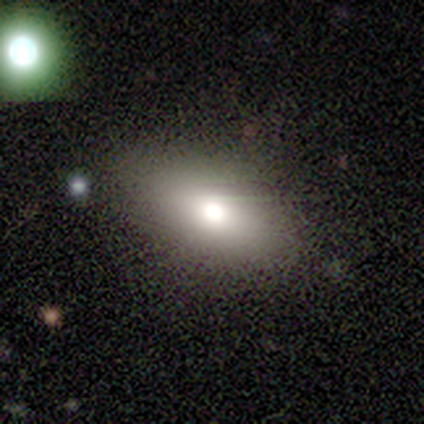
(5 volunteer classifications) Q: Smooth or featured?
A: smooth (60%); runner-up: featured or disk (20%)
Q: How rounded?
A: in between (100%)
Q: Merging?
A: none (100%)